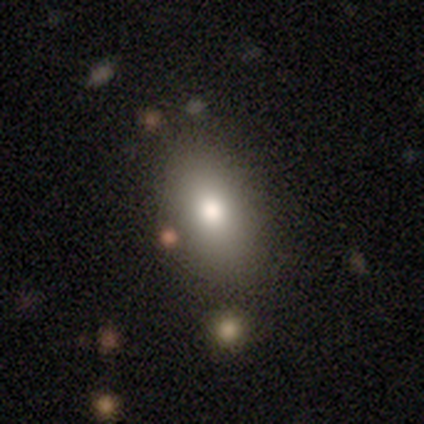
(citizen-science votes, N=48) smooth-or-featured: smooth: 77% | featured or disk: 12% | star or artifact: 10%
  how-rounded: in between: 81% | round: 11% | cigar-shaped: 8%
  merging: none: 74% | minor disturbance: 12% | major disturbance: 7% | merger: 7%